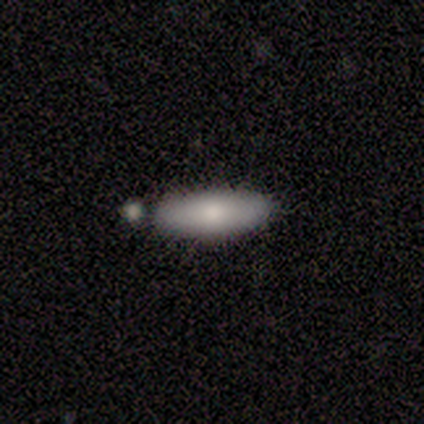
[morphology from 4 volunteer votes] smooth-or-featured: smooth: 50% | featured or disk: 25% | star or artifact: 25%
  how-rounded: in between: 50% (tied) | cigar-shaped: 50% (tied) | round: 0%
  merging: none: 100% | minor disturbance: 0% | major disturbance: 0% | merger: 0%